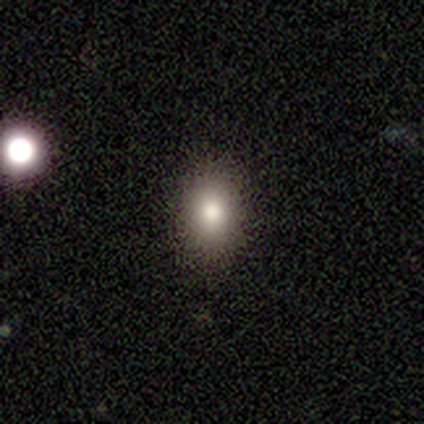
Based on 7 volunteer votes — Smooth or featured? 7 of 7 (100%) said smooth. How rounded? 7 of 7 (100%) said in between. Merging? 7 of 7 (100%) said none.